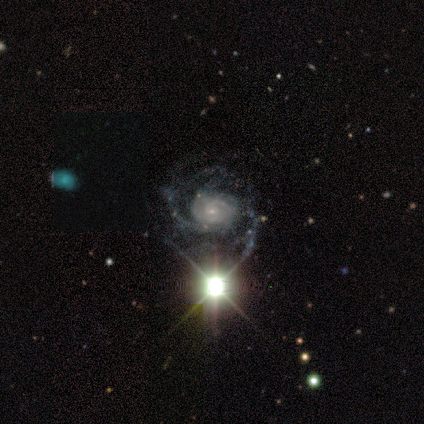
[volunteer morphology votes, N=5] This is clearly a featured or disk galaxy (100%). It is clearly not viewed edge-on (100%). Bar: likely no (60%). Spiral arm pattern: clearly yes (100%). Spiral arm count: likely 2 (60%). Spiral winding: clearly tight (100%). Central bulge: clearly small (80%). Merging: likely none (60%).